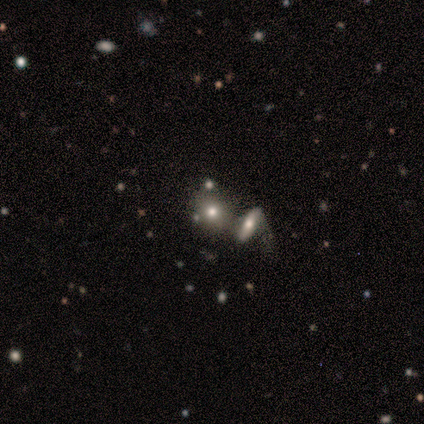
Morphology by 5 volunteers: Smooth or featured? featured or disk (80%)
Edge-on disk? yes (50%, tied with no)
Edge-on bulge? rounded (100%)
Merging? merger (100%)